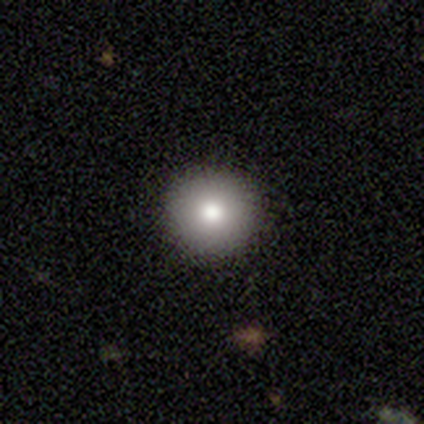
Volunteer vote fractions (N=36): This is likely a smooth galaxy (75%). How rounded: clearly round (96%). Merging: clearly none (84%).